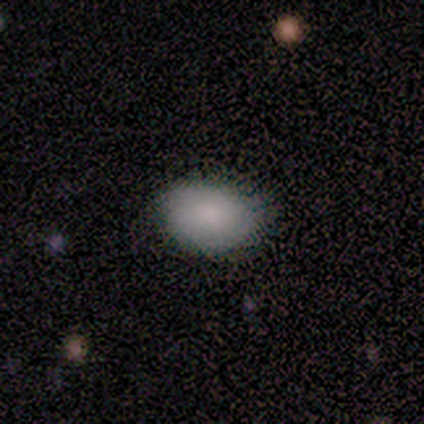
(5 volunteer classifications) A smooth galaxy with no disk features (80%) that is in between round and cigar-shaped (100%). Merging: none (80%).